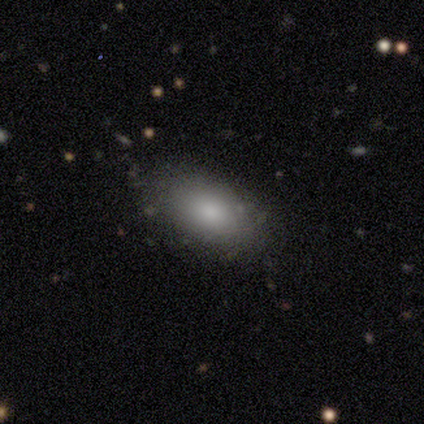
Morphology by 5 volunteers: A smooth galaxy with no disk features (100%) that is in between round and cigar-shaped (100%).

Vote fractions:
- Smooth or featured? smooth: 100% / featured or disk: 0% / star or artifact: 0%
- How rounded? in between: 100% / round: 0% / cigar-shaped: 0%
- Merging? none: 100% / minor disturbance: 0% / major disturbance: 0% / merger: 0%